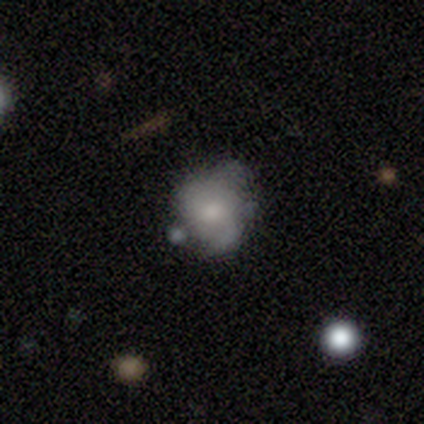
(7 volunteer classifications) Overall: smooth (43%, tied with featured or disk). How rounded: round (100%). Merging: merger (50%; minor disturbance 33%).